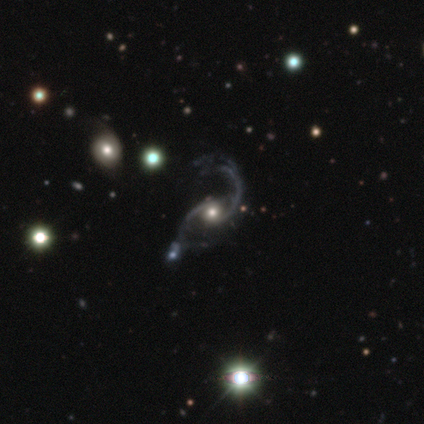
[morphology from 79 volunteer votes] Smooth or featured? featured or disk (92%)
Edge-on disk? no (97%)
Bar? no (73%)
Spiral arms? yes (100%)
Spiral winding? loose (73%)
Spiral arm count? 2 (96%)
Bulge size? moderate (52%)
Merging? none (31%)